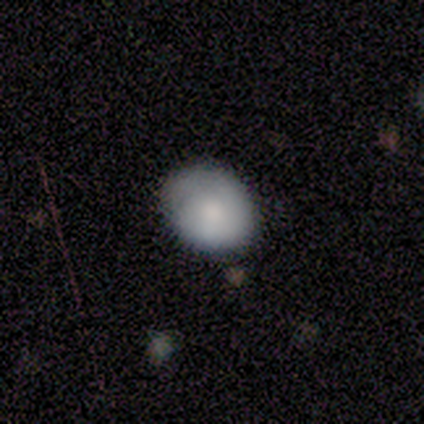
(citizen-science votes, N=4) Smooth or featured? 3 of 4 (75%) said smooth. How rounded? 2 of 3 (67%) said in between. Merging? 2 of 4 (50%, tied with minor disturbance) said none.